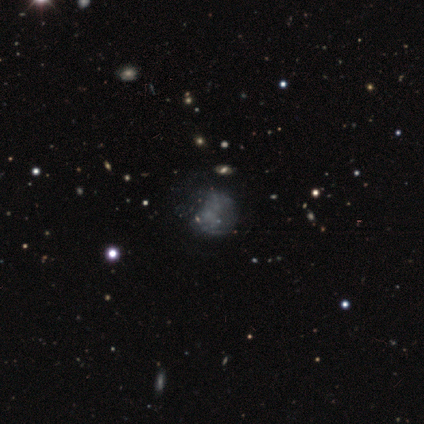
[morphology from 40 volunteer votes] Overall: featured or disk (50%; smooth 32%). Edge-on disk: no (100%). Bar: no (95%). Spiral arms: no (95%). Bulge size: none (95%). Merging: none (39%; minor disturbance 15%).